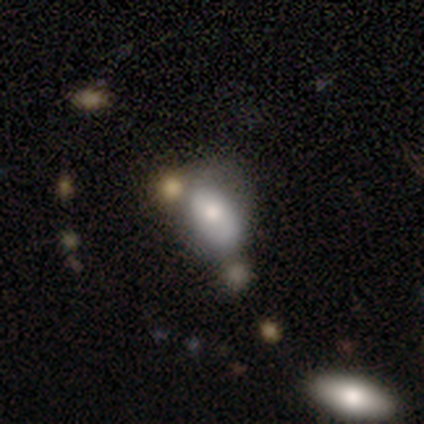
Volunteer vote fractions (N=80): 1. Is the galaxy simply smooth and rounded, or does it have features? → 74% smooth, 18% featured or disk, 9% star or artifact.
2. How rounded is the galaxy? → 88% in between, 12% round, 0% cigar-shaped.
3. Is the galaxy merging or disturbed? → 32% merger, 15% none, 14% minor disturbance, 8% major disturbance.